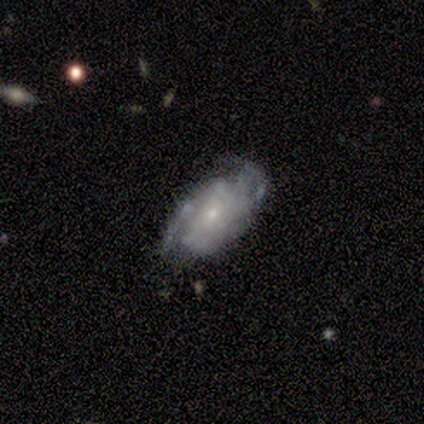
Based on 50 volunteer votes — Overall: featured or disk (74%). Edge-on disk: no (100%). Bar: no (78%). Spiral arms: yes (78%). Spiral arm count: 2 (48%; can't tell 31%). Spiral winding: tight (52%; medium 38%). Bulge size: small (70%). Merging: none (49%; minor disturbance 32%).